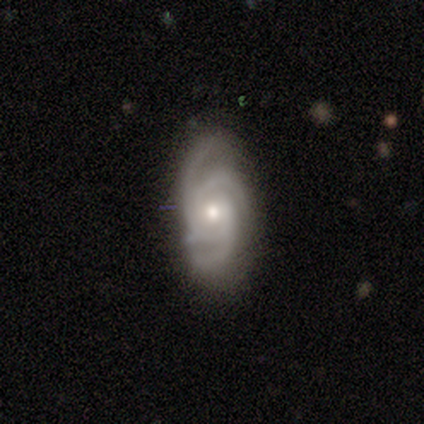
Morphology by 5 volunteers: type=featured or disk (80%); edge-on=no (100%); bar=no (100%); spiral arms=yes (100%); winding=tight (75%); arm count=3 (75%); bulge=moderate (50%, tied with small); merging=none (100%).